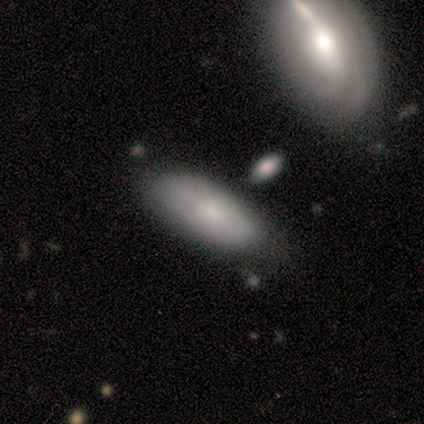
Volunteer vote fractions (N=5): This is likely a smooth galaxy (60%). How rounded: clearly in between (100%). Merging: clearly none (100%).